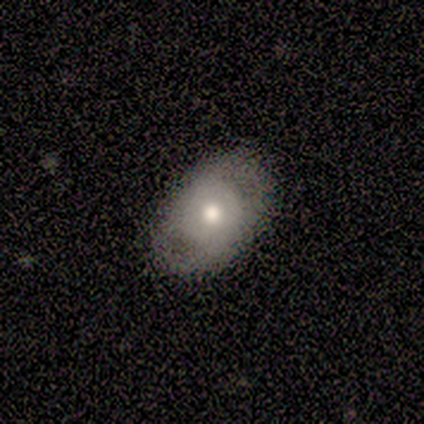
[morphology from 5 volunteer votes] type=featured or disk (60%); edge-on=no (100%); bar=no (100%); spiral arms=no (67%); bulge=moderate (100%); merging=none (100%).